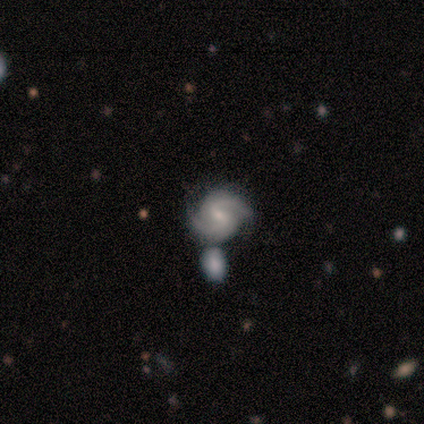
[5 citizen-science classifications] smooth-or-featured: featured or disk: 60% | smooth: 20% | star or artifact: 20%
  disk-edge-on: no: 100% | yes: 0%
    bar: weak: 67% | strong: 33% | no: 0%
    has-spiral-arms: yes: 67% | no: 33%
      spiral-winding: tight: 50% (tied) | medium: 50% (tied) | loose: 0%
      spiral-arm-count: 2: 100% | 1: 0% | 3: 0% | 4: 0% | more than 4: 0% | can't tell: 0%
    bulge-size: moderate: 67% | small: 33% | dominant: 0% | large: 0% | none: 0%
  merging: merger: 50% | none: 25% | major disturbance: 25% | minor disturbance: 0%